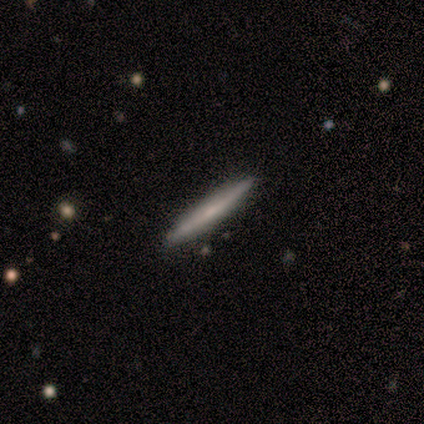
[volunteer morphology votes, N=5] Overall: smooth (100%). How rounded: cigar-shaped (100%). Merging: none (100%).